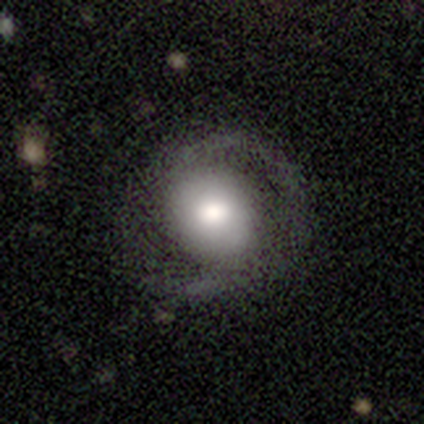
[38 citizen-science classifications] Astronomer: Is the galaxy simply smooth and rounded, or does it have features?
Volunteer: featured or disk — 61%.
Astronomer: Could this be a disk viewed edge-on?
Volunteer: no — 83%.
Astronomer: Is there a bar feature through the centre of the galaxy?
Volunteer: no — 79%.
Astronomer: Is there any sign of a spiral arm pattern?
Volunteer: yes — 74%.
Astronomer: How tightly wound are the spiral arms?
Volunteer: tight — 43% (runner-up: medium, 29%).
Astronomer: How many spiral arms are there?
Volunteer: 2 — 79%.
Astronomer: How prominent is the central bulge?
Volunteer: moderate — 63%.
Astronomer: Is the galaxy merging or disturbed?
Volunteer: none — 75%.